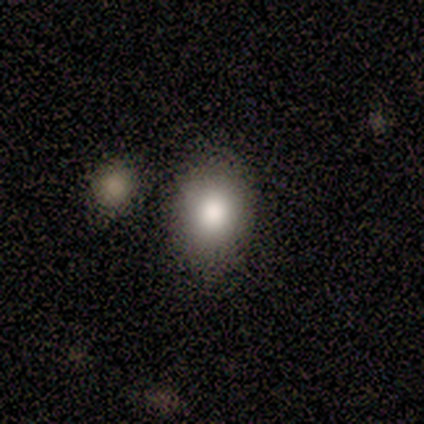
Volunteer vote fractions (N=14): smooth_or_featured: smooth (p=0.86) [alt: star or artifact p=0.14]
how_rounded: in between (p=0.83) [alt: round p=0.17]
merging: none (p=0.83) [alt: minor disturbance p=0.08]